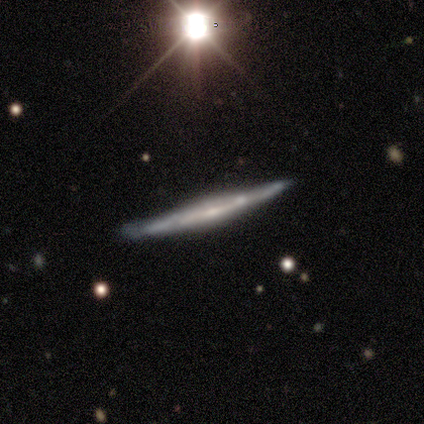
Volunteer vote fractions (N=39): This appears to be a featured or disk galaxy (77%) viewed edge-on (97%) with no central bulge (48%). Merging: none (59%).